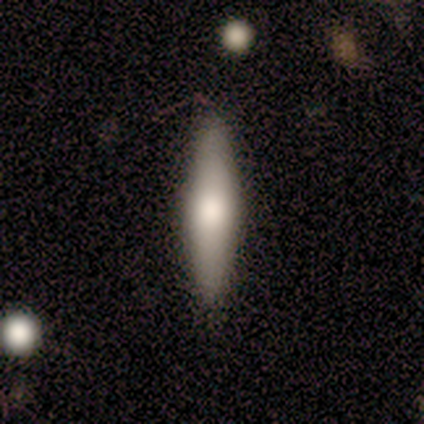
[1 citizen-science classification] Smooth or featured?
  - featured or disk: 100% *
  - smooth: 0%
  - star or artifact: 0%
Edge-on disk?
  - yes: 100% *
  - no: 0%
Edge-on bulge?
  - rounded: 100% *
  - boxy: 0%
  - none: 0%
Merging?
  - none: 100% *
  - minor disturbance: 0%
  - major disturbance: 0%
  - merger: 0%